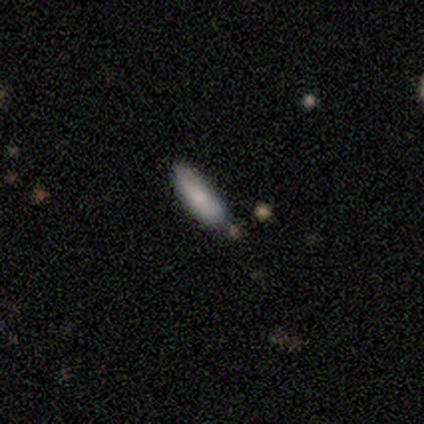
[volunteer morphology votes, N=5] Smooth or featured: smooth — 60% (featured or disk — 40%)
How rounded: cigar-shaped — 67% (in between — 33%)
Merging: none — 80% (minor disturbance — 20%)